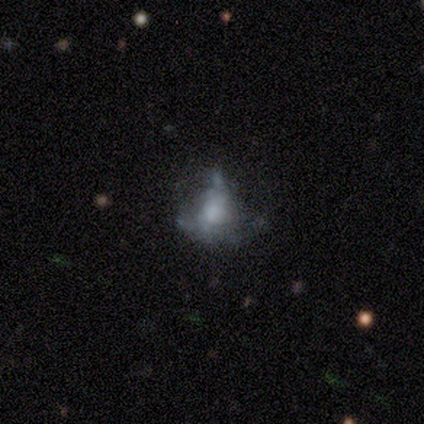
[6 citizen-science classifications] Morphology: type=smooth (67%); roundness=in between (75%); merging=none (50%).